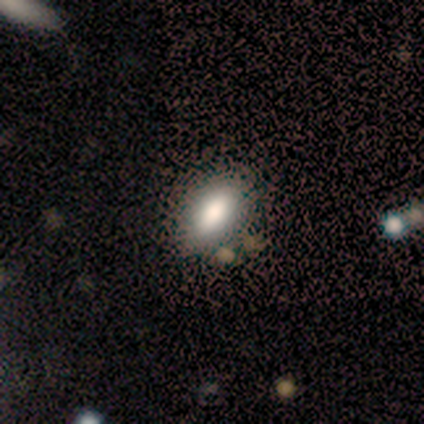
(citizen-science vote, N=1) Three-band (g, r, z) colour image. It shows a star or artifact, not a galaxy (100%).